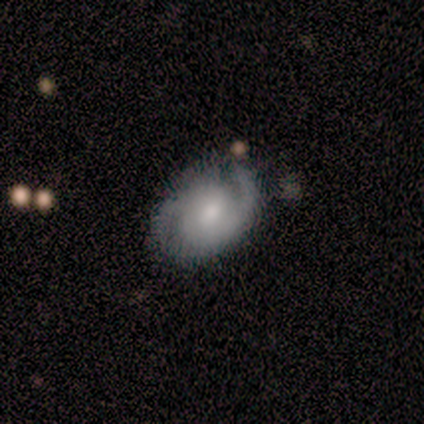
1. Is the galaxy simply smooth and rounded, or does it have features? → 85% featured or disk, 13% smooth, 1% star or artifact.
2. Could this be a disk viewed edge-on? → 98% no, 2% yes.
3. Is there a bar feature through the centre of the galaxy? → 75% no, 17% weak, 8% strong.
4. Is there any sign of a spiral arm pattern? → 92% yes, 8% no.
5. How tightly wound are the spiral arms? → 53% tight, 40% medium, 7% loose.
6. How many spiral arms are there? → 88% 2, 7% can't tell, 3% 1, 2% more than 4, 0% 3, 0% 4.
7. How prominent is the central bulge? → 52% moderate, 21% small, 17% large, 6% none, 3% dominant.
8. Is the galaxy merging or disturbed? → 57% none, 27% minor disturbance, 8% major disturbance, 8% merger.